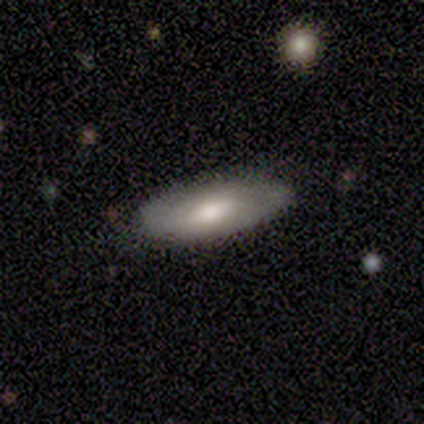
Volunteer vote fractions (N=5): Smooth or featured? featured or disk (60%)
Edge-on disk? no (67%)
Bar? weak (50%, tied with no)
Spiral arms? no (100%)
Bulge size? moderate (100%)
Merging? none (80%)